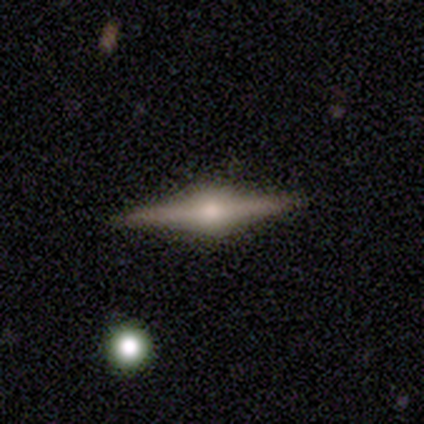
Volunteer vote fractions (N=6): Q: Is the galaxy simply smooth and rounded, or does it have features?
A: featured or disk — 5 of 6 (83%).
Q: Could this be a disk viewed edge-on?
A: yes — 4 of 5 (80%).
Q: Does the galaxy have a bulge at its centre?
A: rounded — 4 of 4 (100%).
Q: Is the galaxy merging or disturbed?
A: none — 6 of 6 (100%).